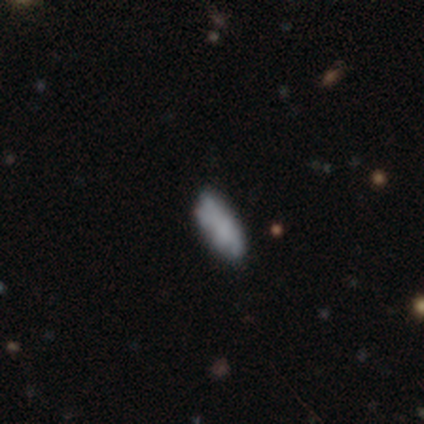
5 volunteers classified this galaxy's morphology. Smooth or featured? 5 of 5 (100%) said smooth. How rounded? 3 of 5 (60%) said in between. Merging? 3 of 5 (60%) said none.